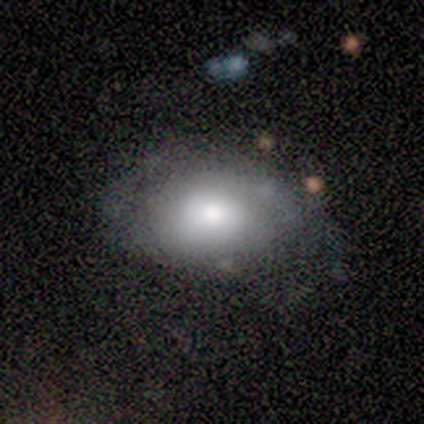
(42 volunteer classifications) Smooth or featured? 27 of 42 (64%) said smooth. How rounded? 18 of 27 (67%) said in between. Merging? 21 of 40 (52%) said none.